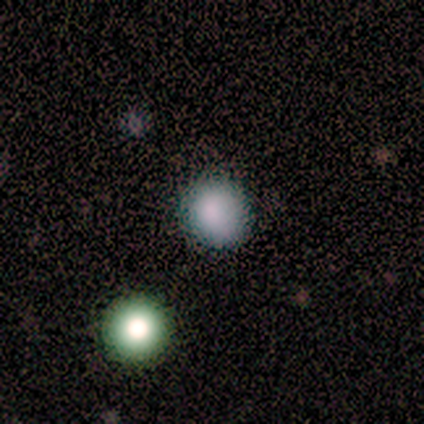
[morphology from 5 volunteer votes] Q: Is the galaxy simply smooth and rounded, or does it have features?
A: smooth — 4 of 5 (80%).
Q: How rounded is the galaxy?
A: round — 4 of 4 (100%).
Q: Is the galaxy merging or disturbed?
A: none — 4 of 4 (100%).